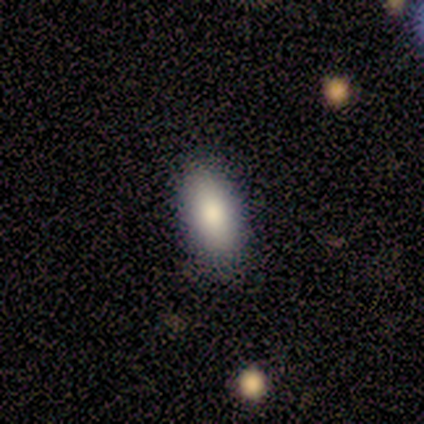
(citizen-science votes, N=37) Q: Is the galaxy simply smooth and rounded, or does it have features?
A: smooth — 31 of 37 (84%).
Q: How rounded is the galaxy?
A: in between — 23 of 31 (74%).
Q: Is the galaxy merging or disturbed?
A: none — 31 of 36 (86%).